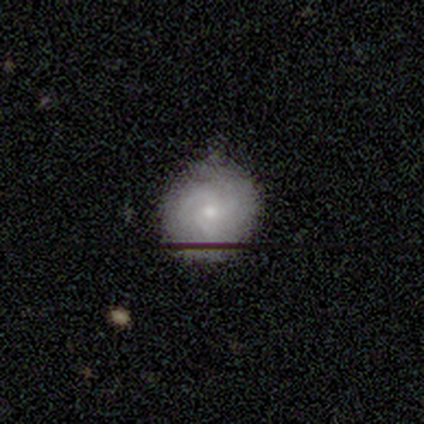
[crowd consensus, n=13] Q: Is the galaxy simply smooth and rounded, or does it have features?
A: featured or disk — 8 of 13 (62%).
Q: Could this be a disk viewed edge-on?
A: no — 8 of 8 (100%).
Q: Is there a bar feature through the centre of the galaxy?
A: no — 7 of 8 (88%).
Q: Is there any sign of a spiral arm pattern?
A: yes — 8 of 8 (100%).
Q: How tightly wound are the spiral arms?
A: medium — 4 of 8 (50%).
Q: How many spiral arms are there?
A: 3 — 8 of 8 (100%).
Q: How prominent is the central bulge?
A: small — 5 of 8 (62%).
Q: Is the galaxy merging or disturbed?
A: none — 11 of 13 (85%).